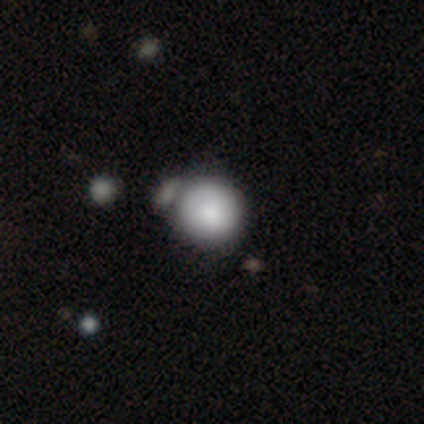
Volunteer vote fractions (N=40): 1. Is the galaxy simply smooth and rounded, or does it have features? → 88% smooth, 10% featured or disk, 2% star or artifact.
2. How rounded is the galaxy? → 89% round, 11% in between, 0% cigar-shaped.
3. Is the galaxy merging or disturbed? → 44% none, 31% merger, 10% minor disturbance, 3% major disturbance.